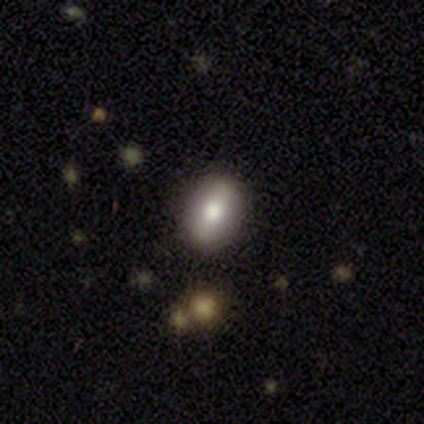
A smooth galaxy with no disk features (67%) that is in between round and cigar-shaped (100%).

Vote fractions:
- Smooth or featured? smooth: 67% / featured or disk: 33% / star or artifact: 0%
- How rounded? in between: 100% / round: 0% / cigar-shaped: 0%
- Merging? none: 83% / merger: 17% / minor disturbance: 0% / major disturbance: 0%